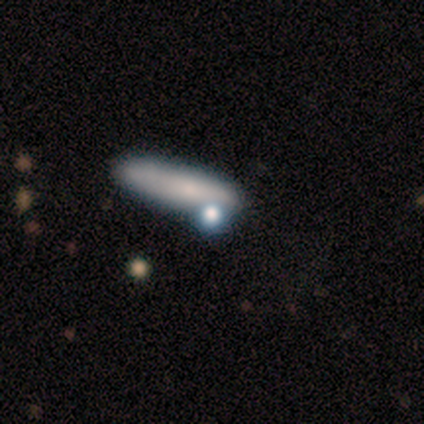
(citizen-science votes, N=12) A smooth galaxy with no disk features (67%) that is cigar-shaped (62%). Merging: none (55%).